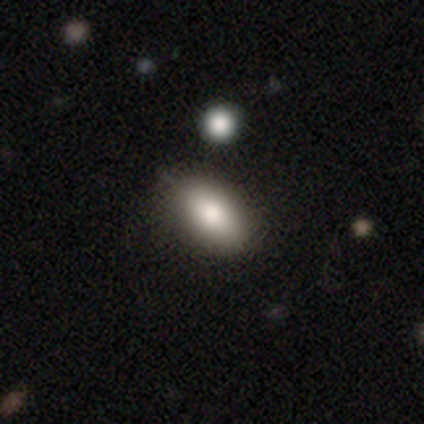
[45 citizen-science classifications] Overall: smooth (87%). How rounded: in between (95%). Merging: none (80%).